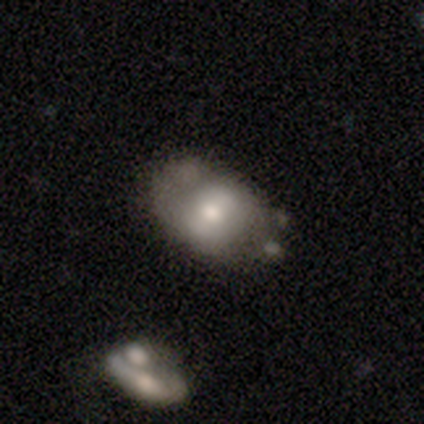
Smooth or featured: smooth — 53% (featured or disk — 45%)
How rounded: in between — 90% (round — 10%)
Merging: none — 54% (minor disturbance — 32%)